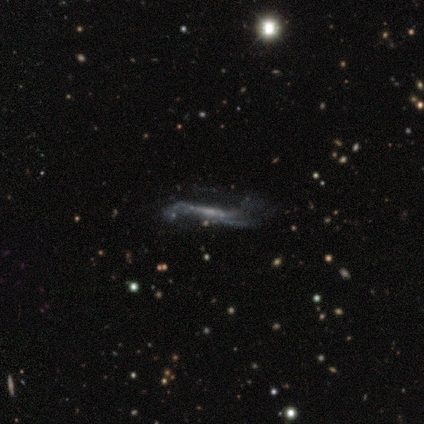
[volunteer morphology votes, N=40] A featured or disk galaxy (80%) viewed edge-on (53%) with no central bulge (59%). Merging: none (51%).